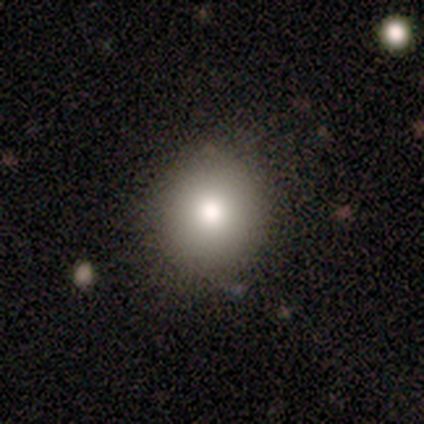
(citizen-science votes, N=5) smooth-or-featured: smooth: 100% | featured or disk: 0% | star or artifact: 0%
  how-rounded: round: 80% | in between: 20% | cigar-shaped: 0%
  merging: none: 100% | minor disturbance: 0% | major disturbance: 0% | merger: 0%